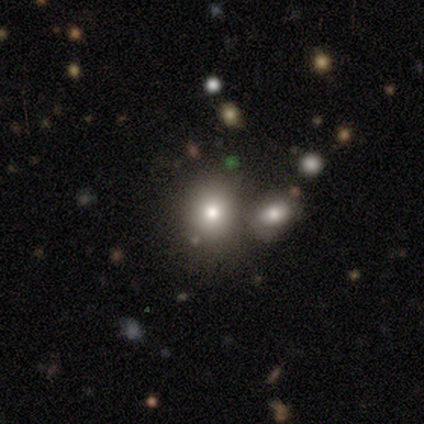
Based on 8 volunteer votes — smooth 88%, star or artifact 12%, featured or disk 0%. Down the decision tree: how rounded — round (100%); merging — none (100%).